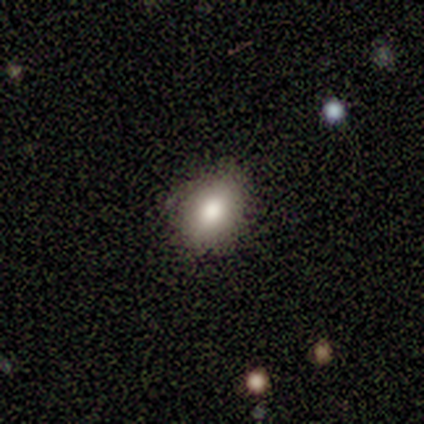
Smooth or featured?
  - smooth: 100% *
  - featured or disk: 0%
  - star or artifact: 0%
How rounded?
  - in between: 100% *
  - round: 0%
  - cigar-shaped: 0%
Merging?
  - none: 75% *
  - minor disturbance: 25%
  - major disturbance: 0%
  - merger: 0%